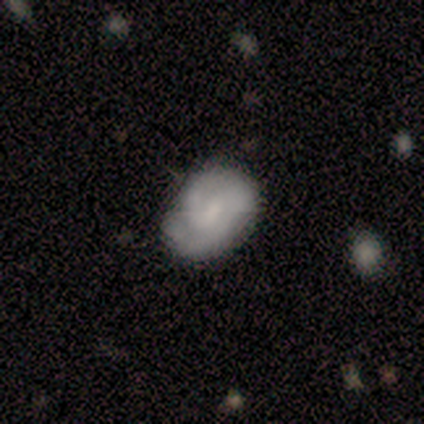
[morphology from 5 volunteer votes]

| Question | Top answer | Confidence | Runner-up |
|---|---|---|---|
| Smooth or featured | smooth | 40% | tied: featured or disk (40%) |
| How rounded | round | 50% | tied: in between (50%) |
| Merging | none | 100% | — |